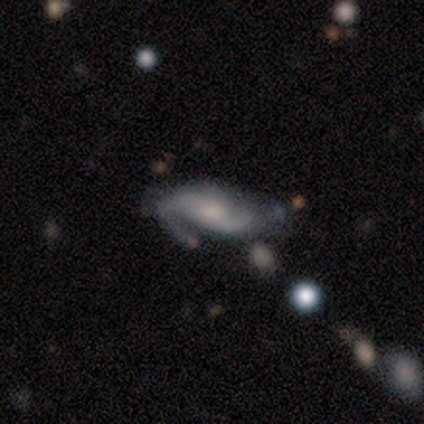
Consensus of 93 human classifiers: Smooth or featured?
  - featured or disk: 78% *
  - smooth: 12%
  - star or artifact: 10%
Edge-on disk?
  - no: 97% *
  - yes: 3%
Bar?
  - no: 58% *
  - weak: 34%
  - strong: 8%
Spiral arms?
  - yes: 96% *
  - no: 4%
Spiral winding?
  - medium: 47% *
  - loose: 28%
  - tight: 25%
Spiral arm count?
  - 2: 78% *
  - 3: 9%
  - can't tell: 7%
  - 1: 6%
  - 4: 0%
  - more than 4: 0%
Bulge size?
  - moderate: 44% *
  - small: 41%
  - none: 10%
  - large: 6%
  - dominant: 0%
Merging?
  - none: 43% *
  - minor disturbance: 29%
  - major disturbance: 20%
  - merger: 8%